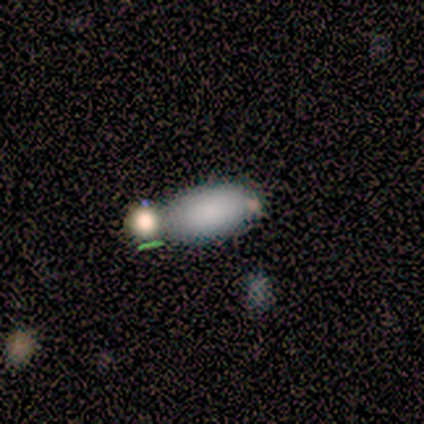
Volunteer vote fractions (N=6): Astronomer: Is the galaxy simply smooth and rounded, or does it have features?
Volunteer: smooth — 50% (runner-up: featured or disk, 33%).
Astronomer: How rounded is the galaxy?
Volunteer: in between — 100%.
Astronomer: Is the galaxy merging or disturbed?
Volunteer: merger — 80%.